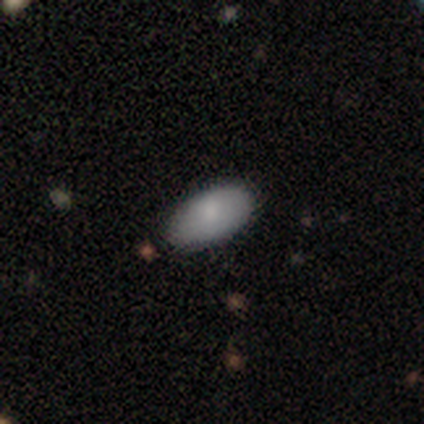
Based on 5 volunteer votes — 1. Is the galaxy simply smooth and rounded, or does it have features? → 60% smooth, 40% star or artifact, 0% featured or disk.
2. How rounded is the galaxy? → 100% in between, 0% round, 0% cigar-shaped.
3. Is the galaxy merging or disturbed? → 67% none, 33% minor disturbance, 0% major disturbance, 0% merger.